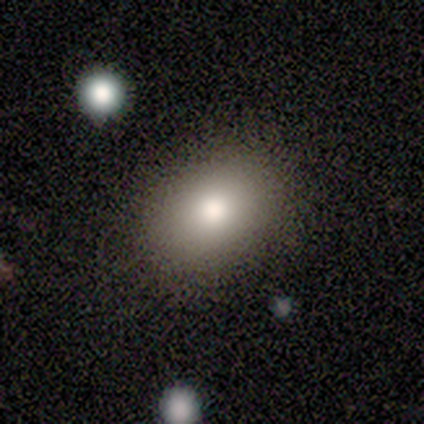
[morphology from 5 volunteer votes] A smooth galaxy with no disk features (100%) that is in between round and cigar-shaped (80%).

Vote fractions:
- Smooth or featured? smooth: 100% / featured or disk: 0% / star or artifact: 0%
- How rounded? in between: 80% / round: 20% / cigar-shaped: 0%
- Merging? none: 80% / major disturbance: 20% / minor disturbance: 0% / merger: 0%